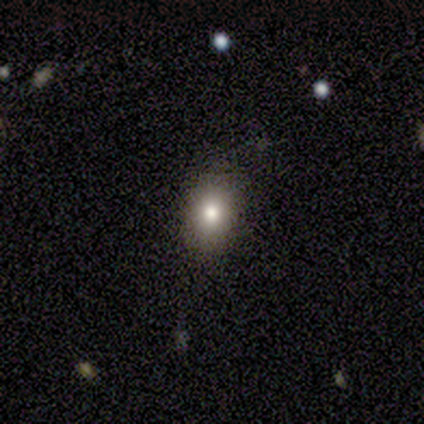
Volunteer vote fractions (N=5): Smooth or featured?
  - smooth: 80% *
  - star or artifact: 20%
  - featured or disk: 0%
How rounded?
  - round: 50% * (tied)
  - in between: 50% * (tied)
  - cigar-shaped: 0%
Merging?
  - none: 75% *
  - minor disturbance: 25%
  - major disturbance: 0%
  - merger: 0%